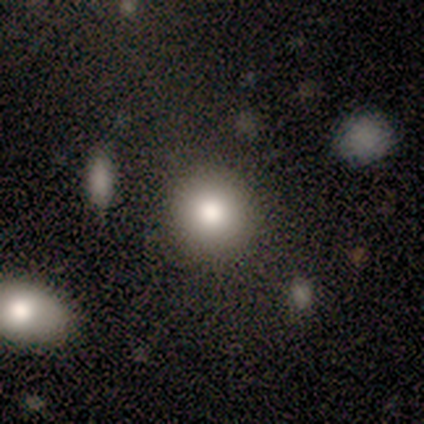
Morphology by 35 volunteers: Smooth or featured: smooth — 77% (featured or disk — 11%)
How rounded: round — 81% (in between — 15%)
Merging: none — 81% (minor disturbance — 6%)